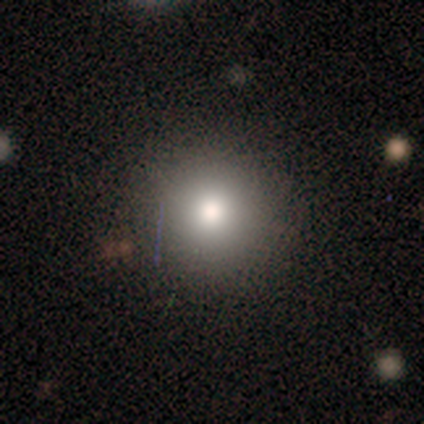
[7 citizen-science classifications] Q: Smooth or featured?
A: smooth (71%); runner-up: star or artifact (29%)
Q: How rounded?
A: round (100%)
Q: Merging?
A: none (80%); runner-up: minor disturbance (20%)